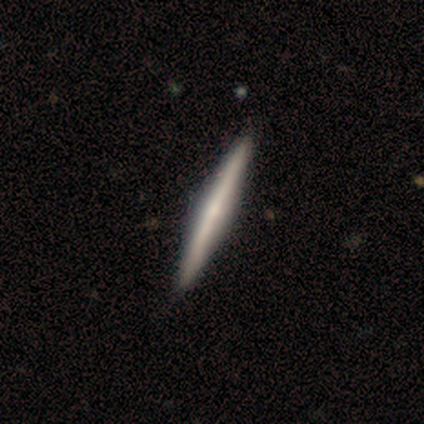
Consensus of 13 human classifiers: Smooth or featured? 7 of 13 (54%) said featured or disk. Edge-on disk? 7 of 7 (100%) said yes. Edge-on bulge? 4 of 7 (57%) said none. Merging? 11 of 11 (100%) said none.